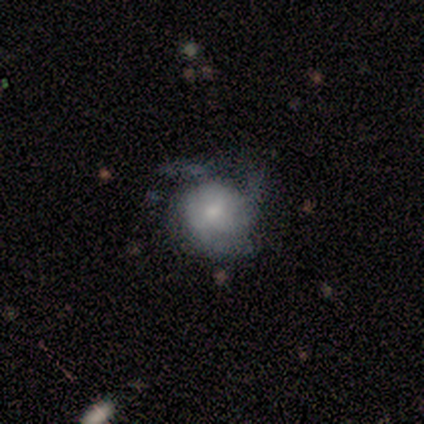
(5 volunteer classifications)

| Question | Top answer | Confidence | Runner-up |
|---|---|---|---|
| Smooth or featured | smooth | 60% | featured or disk (40%) |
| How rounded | round | 67% | in between (33%) |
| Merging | minor disturbance | 80% | none (20%) |